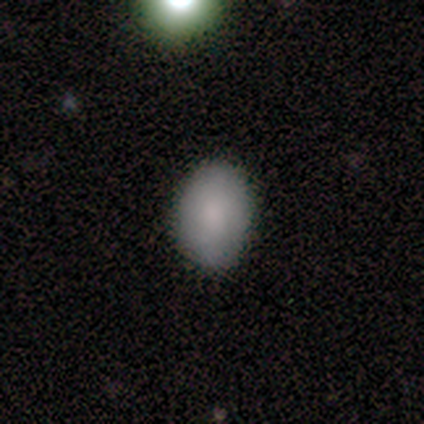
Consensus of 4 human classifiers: Consensus on every question: smooth or featured — smooth (100%); how rounded — in between (100%); merging — none (100%).